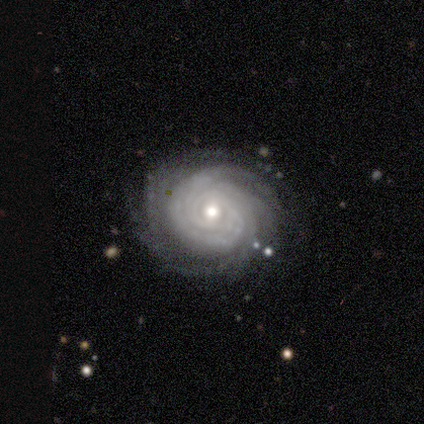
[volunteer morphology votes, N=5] type=featured or disk (100%); edge-on=no (100%); bar=weak (60%); spiral arms=yes (100%); winding=tight (80%); arm count=more than 4 (80%); bulge=small (60%); merging=none (100%).